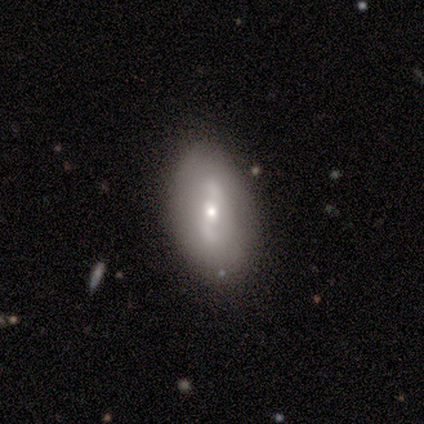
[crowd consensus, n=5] Smooth or featured: smooth — 80% (featured or disk — 20%)
How rounded: in between — 100%
Merging: none — 80% (minor disturbance — 20%)